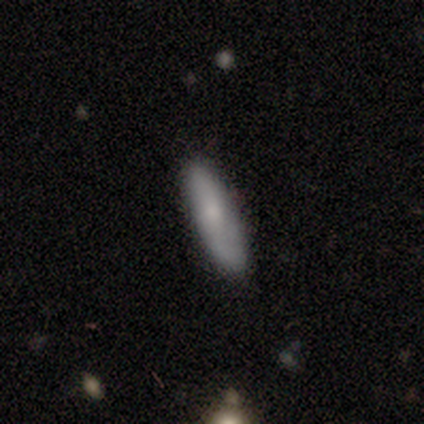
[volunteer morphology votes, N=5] Volunteers were most divided on "how rounded": in between: 75%, cigar-shaped: 25%, round: 0%. More confident: merging — none (100%); smooth or featured — smooth (80%).